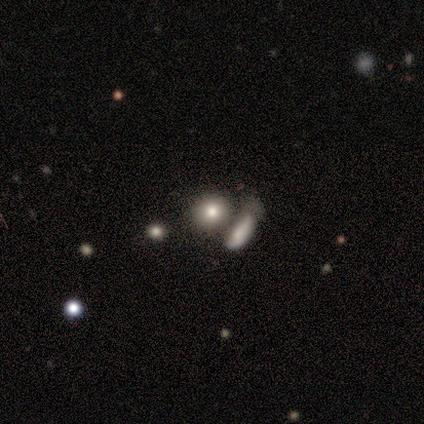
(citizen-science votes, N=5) Smooth or featured? smooth (60%)
How rounded? round (67%)
Merging? merger (50%)